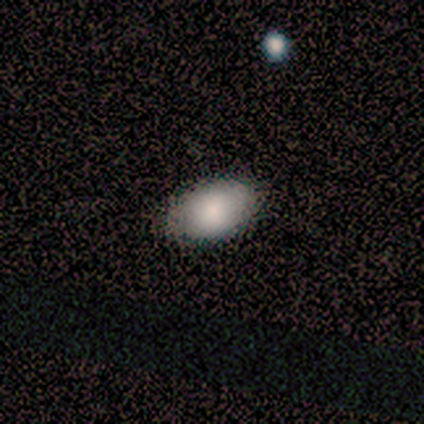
This is possibly a smooth galaxy (50%, tied with featured or disk). How rounded: clearly in between (100%). Merging: clearly none (100%).